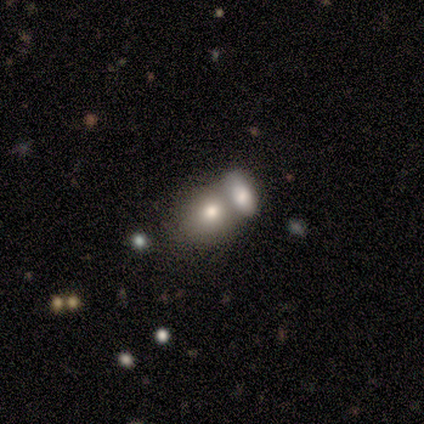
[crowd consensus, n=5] Smooth or featured: smooth — 80% (featured or disk — 20%)
How rounded: round — 75% (in between — 25%)
Merging: merger — 60% (none — 20%)